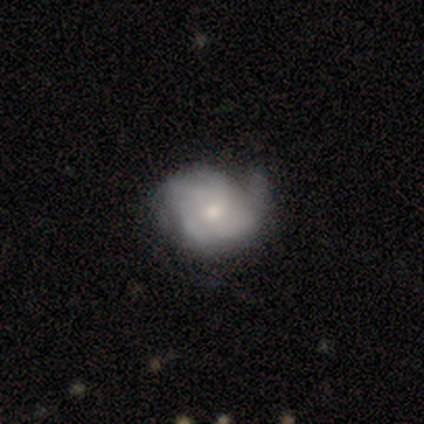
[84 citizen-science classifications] Morphology: type=featured or disk (75%); edge-on=no (98%); bar=no (73%); spiral arms=yes (94%); winding=tight (52%); arm count=2 (28%, tied with can't tell); bulge=small (52%); merging=none (65%).